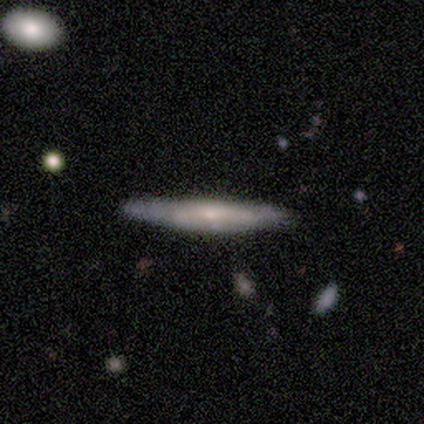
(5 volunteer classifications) featured or disk 60%, smooth 40%, star or artifact 0%. Down the decision tree: edge-on disk — yes (100%); edge-on bulge — rounded (67%); merging — none (80%).